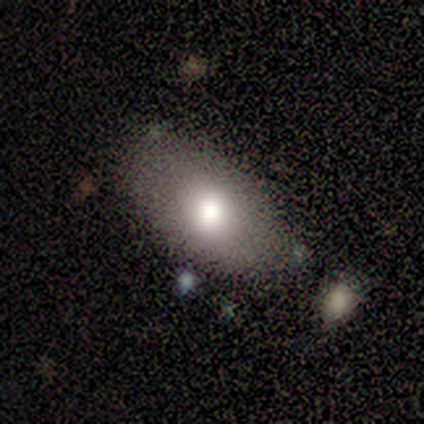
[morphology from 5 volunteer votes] Smooth or featured? smooth (80%)
How rounded? in between (75%)
Merging? none (60%)